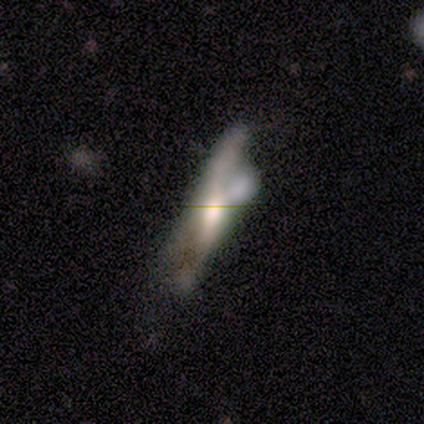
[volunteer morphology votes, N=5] Volunteers were most divided on "edge-on disk": yes: 75%, no: 25%. More confident: edge-on bulge — rounded (100%); smooth or featured — featured or disk (80%); merging — merger (75%).